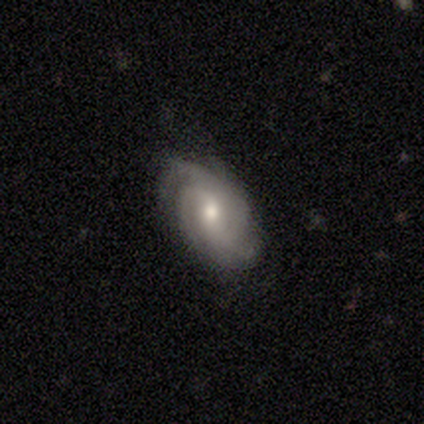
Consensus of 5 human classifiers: Smooth or featured? featured or disk (100%)
Edge-on disk? no (100%)
Bar? no (60%)
Spiral arms? yes (100%)
Spiral winding? tight (60%)
Spiral arm count? 4 (40%, tied with can't tell)
Bulge size? moderate (80%)
Merging? none (40%, tied with minor disturbance)